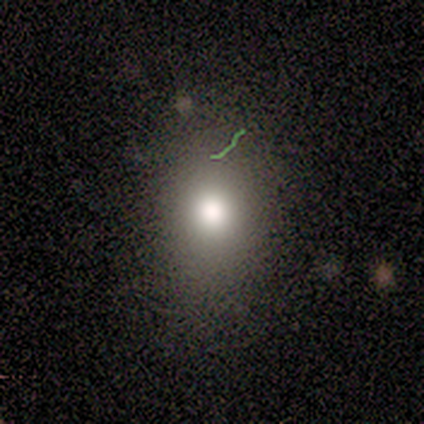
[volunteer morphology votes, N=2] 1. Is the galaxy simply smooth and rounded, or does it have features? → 100% smooth, 0% featured or disk, 0% star or artifact.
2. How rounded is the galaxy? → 100% in between, 0% round, 0% cigar-shaped.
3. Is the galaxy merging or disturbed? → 100% none, 0% minor disturbance, 0% major disturbance, 0% merger.